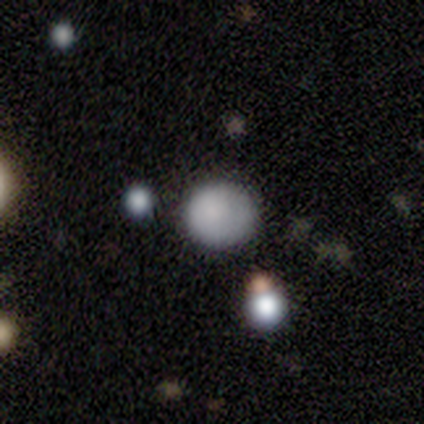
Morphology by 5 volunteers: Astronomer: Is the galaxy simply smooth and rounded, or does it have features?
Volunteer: smooth — 80%.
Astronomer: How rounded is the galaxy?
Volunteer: round — 75%.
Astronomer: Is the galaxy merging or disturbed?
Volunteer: none — 50%, tied with minor disturbance at 50%.